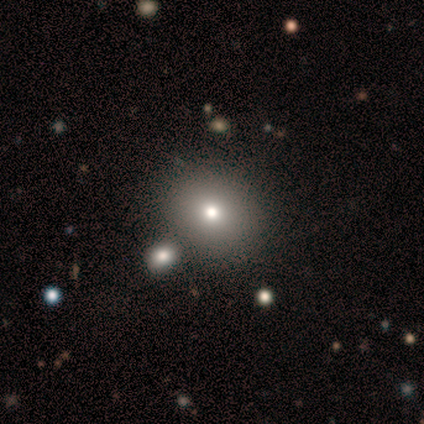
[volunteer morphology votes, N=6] Smooth or featured: smooth — 83% (featured or disk — 17%)
How rounded: round — 80% (in between — 20%)
Merging: none — 67% (minor disturbance — 17%)